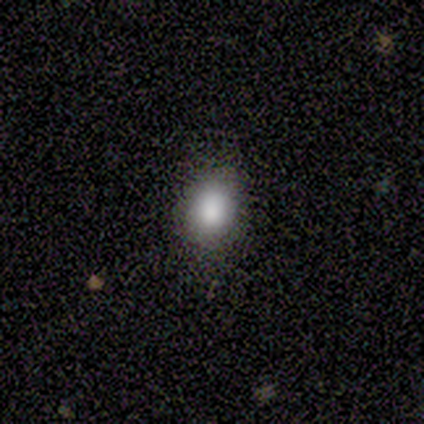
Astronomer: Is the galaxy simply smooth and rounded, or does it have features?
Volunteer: smooth — 60% (runner-up: star or artifact, 40%).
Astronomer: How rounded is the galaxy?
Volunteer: in between — 67%.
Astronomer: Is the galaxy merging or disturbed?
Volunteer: none — 67%.